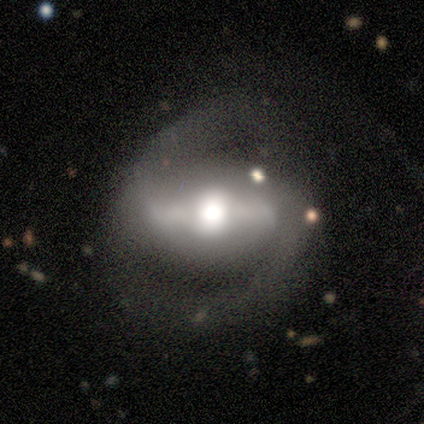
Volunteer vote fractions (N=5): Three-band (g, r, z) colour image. It shows a featured or disk galaxy (80%) with a strong bar (75%), 2 (100%) loose (50%) spiral arms (100%) and a large central bulge (50%, tied with moderate). Merging: none (80%).